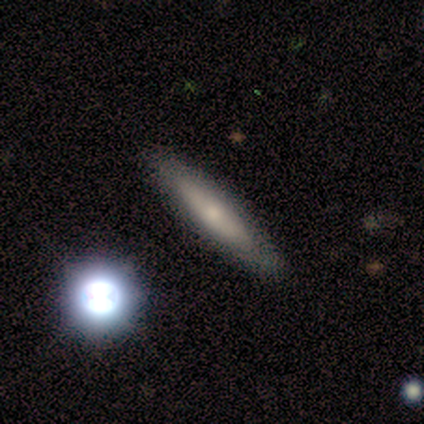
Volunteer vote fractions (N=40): Smooth or featured? 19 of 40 (48%) said smooth. How rounded? 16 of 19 (84%) said cigar-shaped. Merging? 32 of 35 (91%) said none.